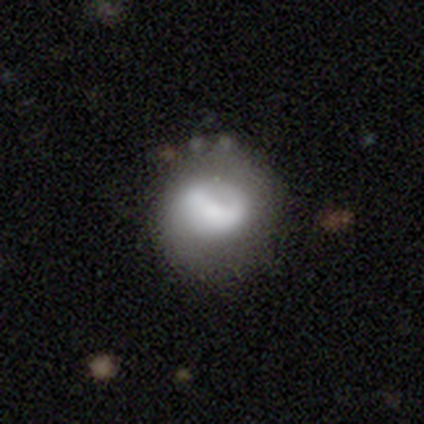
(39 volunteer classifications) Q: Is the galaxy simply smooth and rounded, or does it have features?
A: smooth — 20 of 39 (51%).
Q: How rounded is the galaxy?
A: round — 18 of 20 (90%).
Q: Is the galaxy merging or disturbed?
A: none — 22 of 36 (61%).